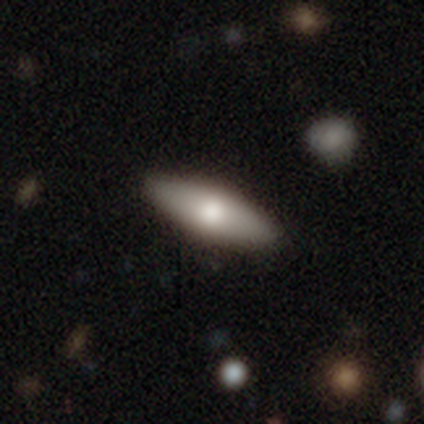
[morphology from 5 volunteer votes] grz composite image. It shows a smooth galaxy with no disk features (80%) that is in between round and cigar-shaped (50%, tied with cigar-shaped). Merging: none (100%).